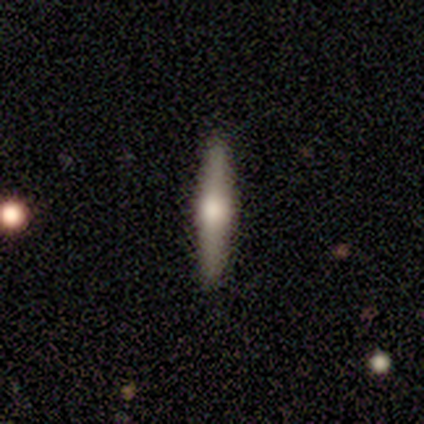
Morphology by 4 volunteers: type=featured or disk (100%); edge-on=yes (100%); edge-on bulge=rounded (100%); merging=none (100%).